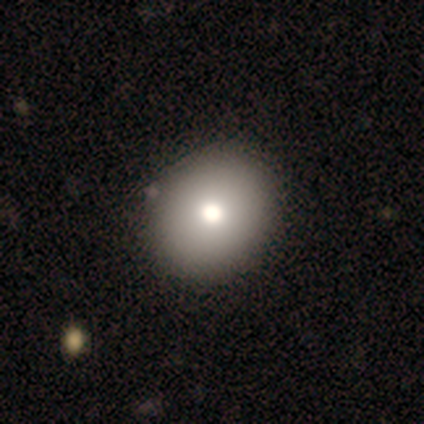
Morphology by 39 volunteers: Overall: smooth (74%). How rounded: round (69%). Merging: none (53%).